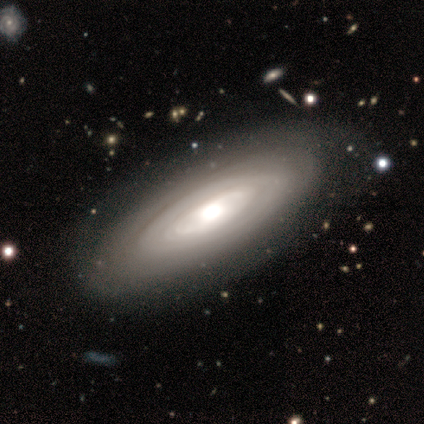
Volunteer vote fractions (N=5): Smooth or featured: featured or disk — 100%
Edge-on disk: no — 80% (yes — 20%)
Bar: no — 100%
Spiral arms: no — 75% (yes — 25%)
Bulge size: large — 50% (tied with moderate — 50%)
Merging: none — 60% (minor disturbance — 40%)